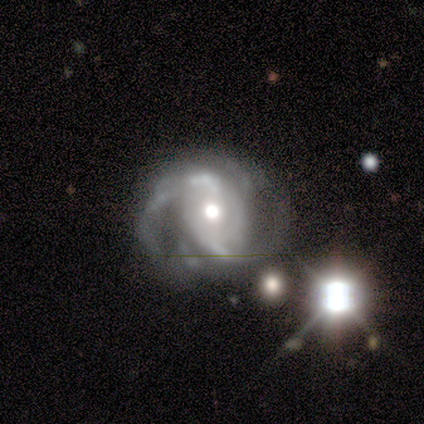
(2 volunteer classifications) A featured or disk galaxy (100%) with no bar (100%), 2 (100%) medium (100%) spiral arms (100%) and a moderate central bulge (100%). Merging: none (50%, tied with minor disturbance).